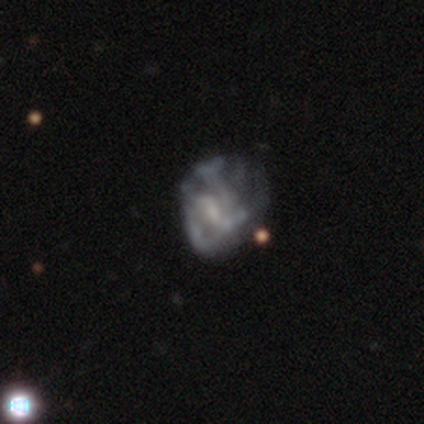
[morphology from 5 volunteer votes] This appears to be a star or artifact, not a galaxy (60%).